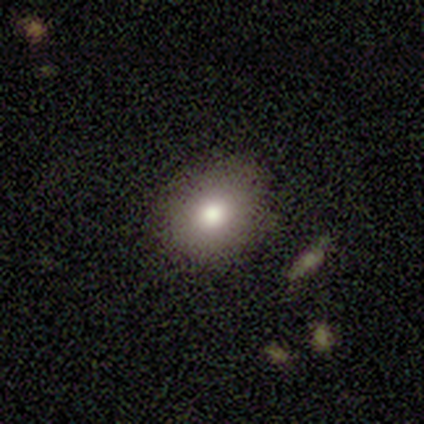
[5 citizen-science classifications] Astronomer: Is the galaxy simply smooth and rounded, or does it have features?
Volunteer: smooth — 60%.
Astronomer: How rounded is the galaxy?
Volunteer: in between — 100%.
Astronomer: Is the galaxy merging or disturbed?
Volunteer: none — 75%.